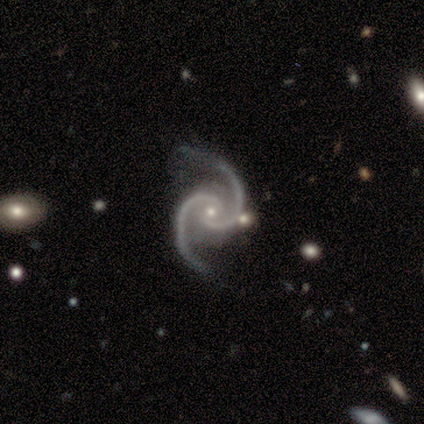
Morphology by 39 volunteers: Overall: featured or disk (100%). Edge-on disk: no (97%). Bar: no (66%). Spiral arms: yes (100%). Spiral arm count: 2 (97%). Spiral winding: medium (74%). Bulge size: small (63%; moderate 32%). Merging: none (74%).